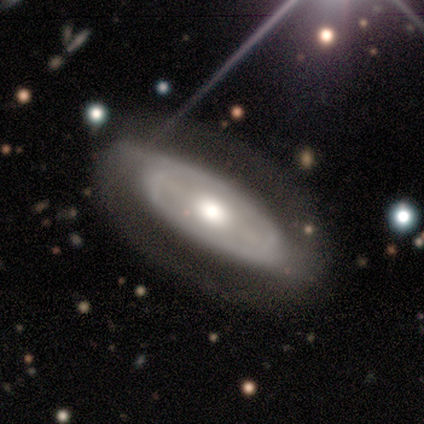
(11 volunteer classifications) smooth_or_featured: featured or disk (p=0.73) [alt: smooth p=0.18]
disk_edge_on: no (p=0.88) [alt: yes p=0.12]
bar: strong (p=0.57) [alt: weak p=0.43]
has_spiral_arms: yes (p=1.00)
spiral_winding: medium (p=0.57) [alt: tight p=0.29]
spiral_arm_count: 2 (p=0.86) [alt: 1 p=0.14]
bulge_size: moderate (p=0.57) [alt: large p=0.43]
merging: none (p=0.70) [alt: major disturbance p=0.20]